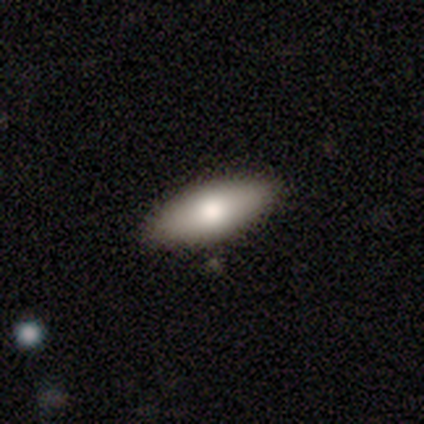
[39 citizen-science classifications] Overall: smooth (74%). How rounded: in between (83%). Merging: none (68%).